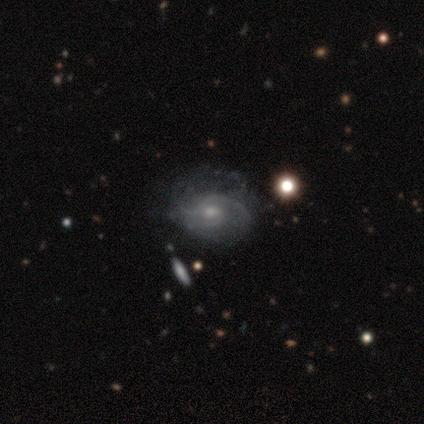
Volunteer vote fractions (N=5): Morphology: type=featured or disk (100%); edge-on=no (100%); bar=no (80%); spiral arms=yes (80%); winding=medium (50%); arm count=2 (50%); bulge=moderate (60%); merging=none (60%).